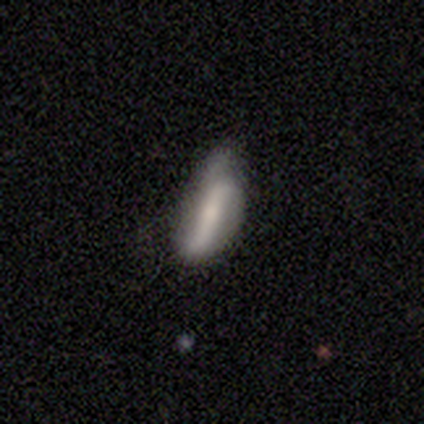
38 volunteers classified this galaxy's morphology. Smooth or featured?
  - featured or disk: 61% *
  - smooth: 39%
  - star or artifact: 0%
Edge-on disk?
  - no: 78% *
  - yes: 22%
Bar?
  - strong: 50% *
  - weak: 28%
  - no: 22%
Spiral arms?
  - yes: 61% *
  - no: 39%
Spiral winding?
  - loose: 82% *
  - tight: 9%
  - medium: 9%
Spiral arm count?
  - 2: 91% *
  - can't tell: 9%
  - 1: 0%
  - 3: 0%
  - 4: 0%
  - more than 4: 0%
Bulge size?
  - small: 39% *
  - moderate: 28%
  - none: 28%
  - large: 6%
  - dominant: 0%
Merging?
  - none: 50% *
  - minor disturbance: 37%
  - major disturbance: 13%
  - merger: 0%